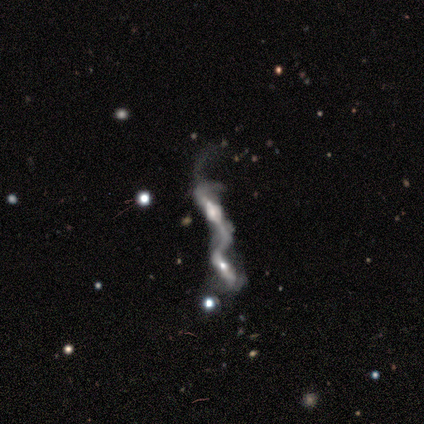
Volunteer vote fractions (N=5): Smooth or featured?
  - featured or disk: 80% *
  - smooth: 20%
  - star or artifact: 0%
Edge-on disk?
  - yes: 75% *
  - no: 25%
Edge-on bulge?
  - boxy: 67% *
  - rounded: 33%
  - none: 0%
Merging?
  - merger: 80% *
  - major disturbance: 20%
  - none: 0%
  - minor disturbance: 0%